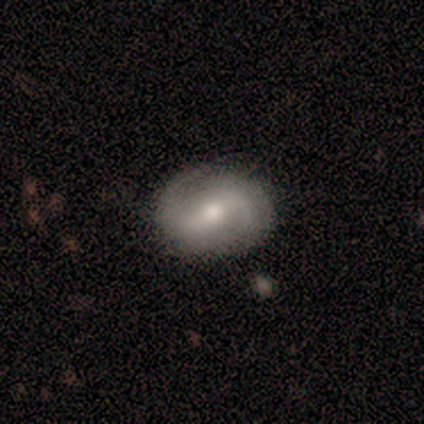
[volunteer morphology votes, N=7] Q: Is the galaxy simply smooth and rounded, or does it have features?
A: featured or disk — 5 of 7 (71%).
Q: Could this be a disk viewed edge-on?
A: no — 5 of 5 (100%).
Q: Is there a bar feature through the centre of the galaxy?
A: weak — 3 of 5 (60%).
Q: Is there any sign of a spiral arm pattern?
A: yes — 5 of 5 (100%).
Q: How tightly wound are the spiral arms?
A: medium — 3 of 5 (60%).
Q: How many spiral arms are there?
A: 2 — 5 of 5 (100%).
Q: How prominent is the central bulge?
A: moderate — 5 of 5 (100%).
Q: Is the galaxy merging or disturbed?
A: none — 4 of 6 (67%).